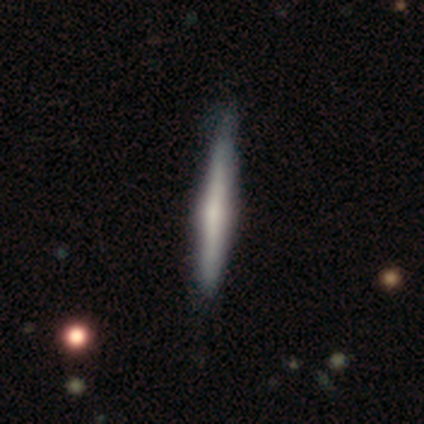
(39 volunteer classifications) This appears to be a featured or disk galaxy (67%) viewed edge-on (96%) with a rounded central bulge (56%). Merging: none (56%).